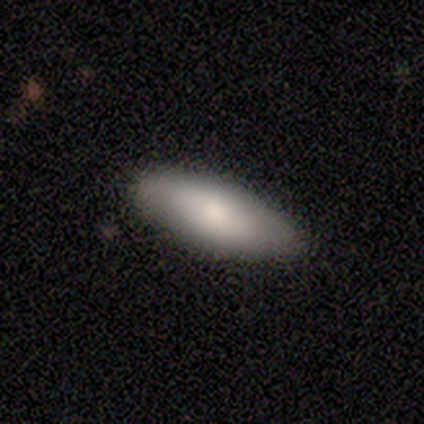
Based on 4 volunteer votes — A smooth galaxy with no disk features (100%) that is in between round and cigar-shaped (100%).

Vote fractions:
- Smooth or featured? smooth: 100% / featured or disk: 0% / star or artifact: 0%
- How rounded? in between: 100% / round: 0% / cigar-shaped: 0%
- Merging? none: 100% / minor disturbance: 0% / major disturbance: 0% / merger: 0%